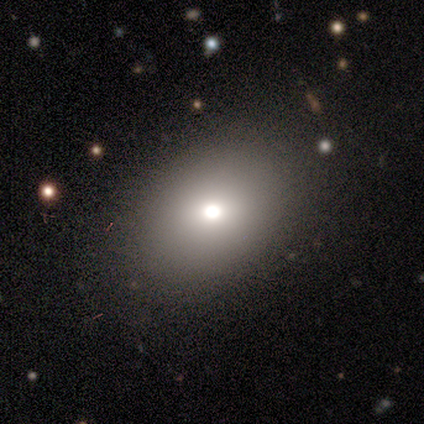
smooth 81%, featured or disk 13%, star or artifact 6%. Down the decision tree: how rounded — in between (62%); merging — none (51%).